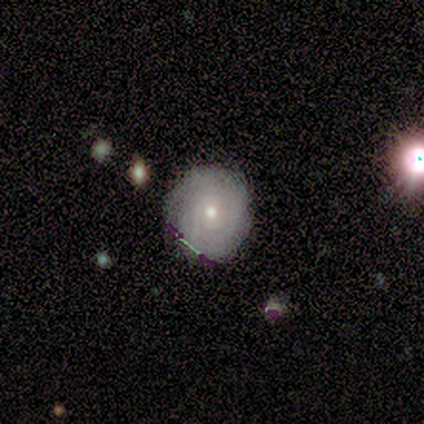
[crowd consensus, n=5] Smooth or featured? featured or disk (40%, tied with star or artifact)
Edge-on disk? no (100%)
Bar? weak (50%, tied with no)
Spiral arms? yes (100%)
Spiral winding? tight (100%)
Spiral arm count? 4 (50%, tied with can't tell)
Bulge size? moderate (100%)
Merging? none (67%)